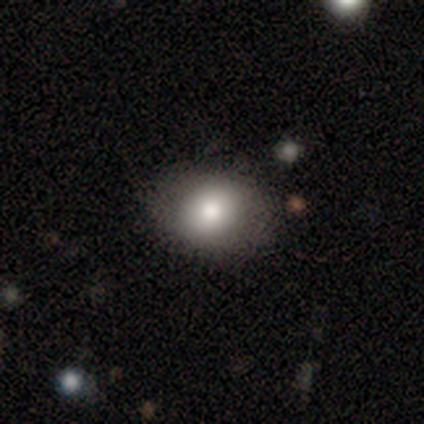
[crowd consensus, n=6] A smooth galaxy with no disk features (83%) that is in between round and cigar-shaped (60%).

Vote fractions:
- Smooth or featured? smooth: 83% / star or artifact: 17% / featured or disk: 0%
- How rounded? in between: 60% / round: 40% / cigar-shaped: 0%
- Merging? none: 100% / minor disturbance: 0% / major disturbance: 0% / merger: 0%